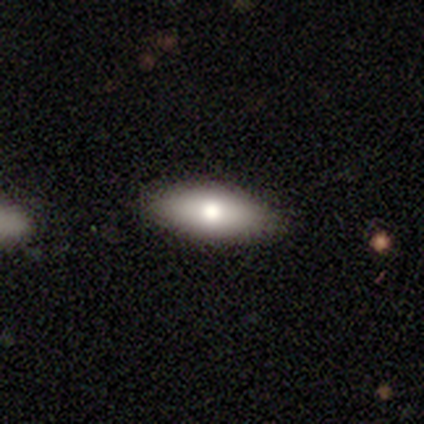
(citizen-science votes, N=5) Smooth or featured?
  - smooth: 80% *
  - featured or disk: 20%
  - star or artifact: 0%
How rounded?
  - in between: 100% *
  - round: 0%
  - cigar-shaped: 0%
Merging?
  - none: 80% *
  - minor disturbance: 20%
  - major disturbance: 0%
  - merger: 0%